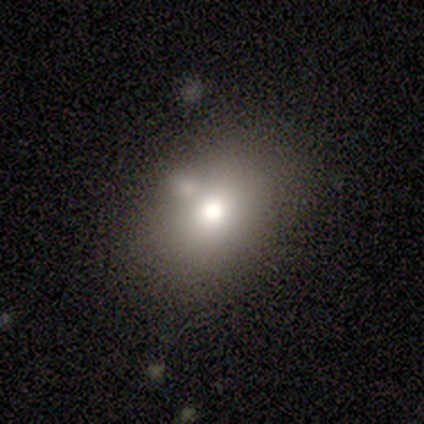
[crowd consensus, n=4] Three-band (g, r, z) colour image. It shows a smooth galaxy with no disk features (100%) that is in between round and cigar-shaped (75%). Merging: none (75%).